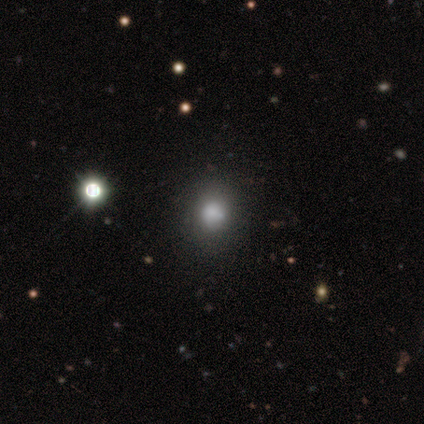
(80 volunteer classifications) Smooth or featured? smooth (75%)
How rounded? round (82%)
Merging? none (40%)